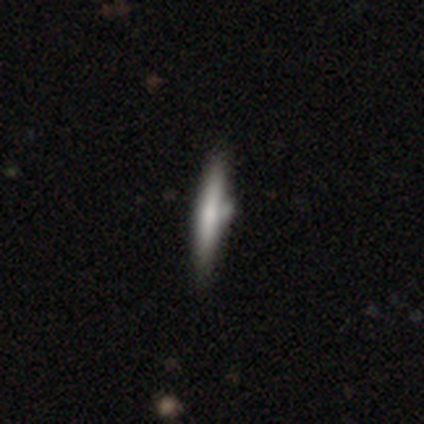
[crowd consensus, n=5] This appears to be a featured or disk galaxy (60%) viewed edge-on (100%) with a rounded central bulge (67%). Merging: none (80%).